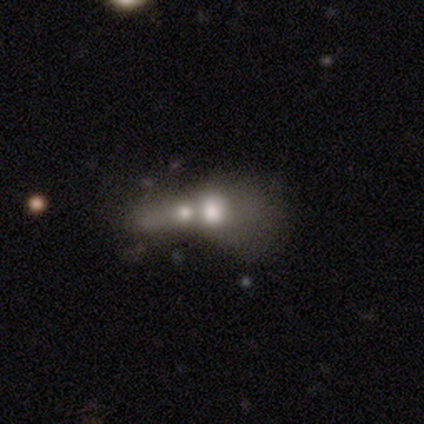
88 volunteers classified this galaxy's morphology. This appears to be a smooth galaxy with no disk features (51%) that is in between round and cigar-shaped (56%). Merging: merger (81%).